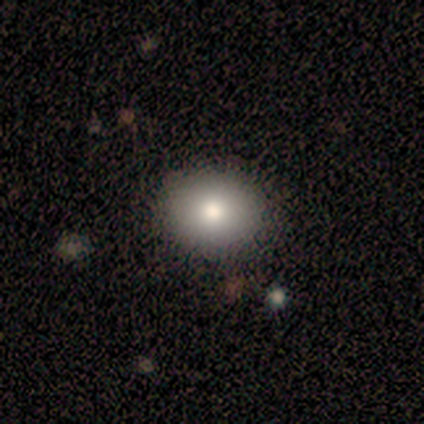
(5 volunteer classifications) Morphology: type=smooth (100%); roundness=round (60%); merging=none (100%).